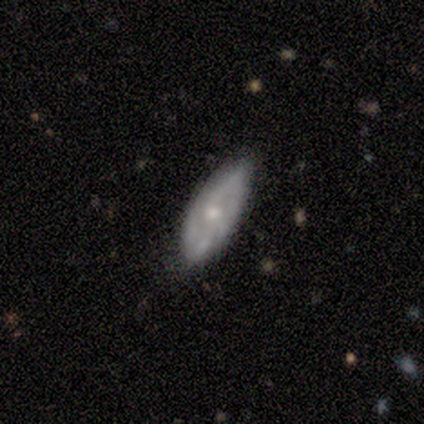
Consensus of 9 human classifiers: smooth_or_featured: featured or disk (p=0.78) [alt: smooth p=0.22]
disk_edge_on: no (p=0.71) [alt: yes p=0.29]
bar: no (p=0.80) [alt: strong p=0.20]
has_spiral_arms: yes (p=0.60) [alt: no p=0.40]
spiral_winding: medium (p=0.67) [alt: tight p=0.33]
spiral_arm_count: 2 (p=0.33) [tied with: 3 p=0.33, can't tell p=0.33]
bulge_size: small (p=0.60) [alt: moderate p=0.40]
merging: none (p=0.89) [alt: minor disturbance p=0.11]